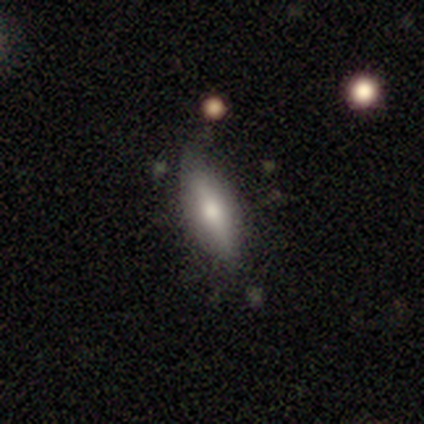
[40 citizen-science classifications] Smooth or featured? smooth (68%)
How rounded? in between (59%)
Merging? none (73%)